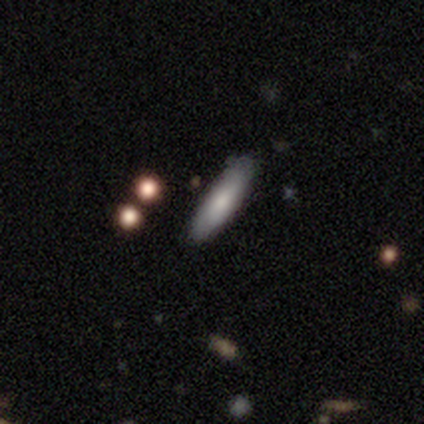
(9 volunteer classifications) Smooth or featured? 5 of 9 (56%) said smooth. How rounded? 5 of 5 (100%) said cigar-shaped. Merging? 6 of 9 (67%) said none.